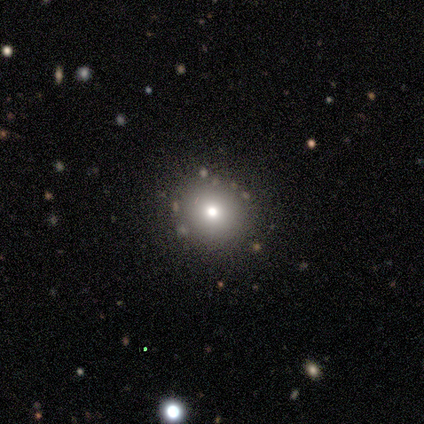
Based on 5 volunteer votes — A smooth galaxy with no disk features (80%) that is round (100%).

Vote fractions:
- Smooth or featured? smooth: 80% / star or artifact: 20% / featured or disk: 0%
- How rounded? round: 100% / in between: 0% / cigar-shaped: 0%
- Merging? none: 100% / minor disturbance: 0% / major disturbance: 0% / merger: 0%